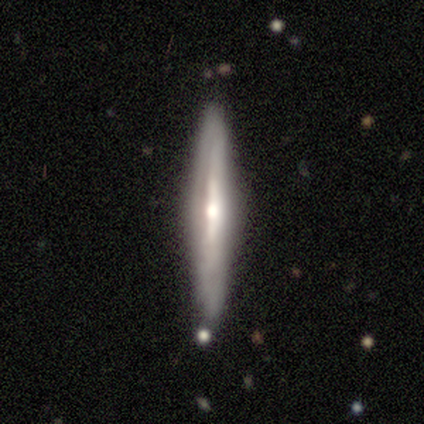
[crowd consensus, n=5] featured or disk 80%, star or artifact 20%, smooth 0%. Down the decision tree: edge-on disk — yes (75%); edge-on bulge — rounded (100%); merging — none (50%, tied with minor disturbance).